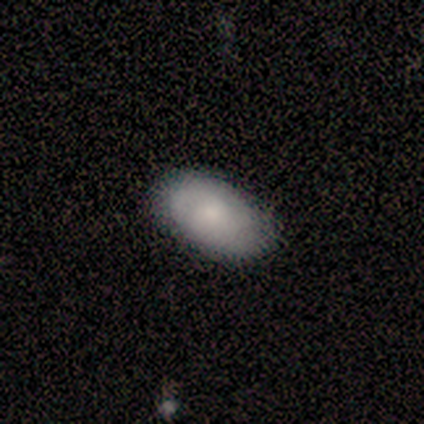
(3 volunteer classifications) This appears to be a smooth galaxy with no disk features (67%) that is in between round and cigar-shaped (100%). Merging: none (33%, tied with minor disturbance and merger).